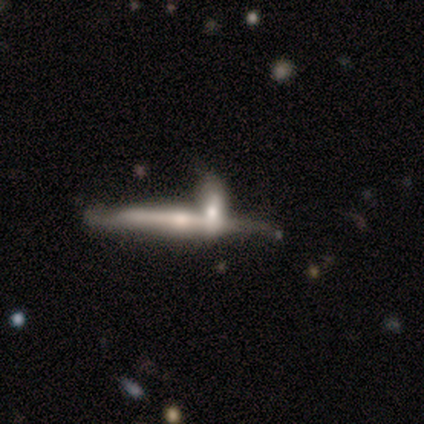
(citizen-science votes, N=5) Smooth or featured? 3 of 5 (60%) said featured or disk. Edge-on disk? 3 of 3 (100%) said yes. Edge-on bulge? 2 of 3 (67%) said rounded. Merging? 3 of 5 (60%) said none.